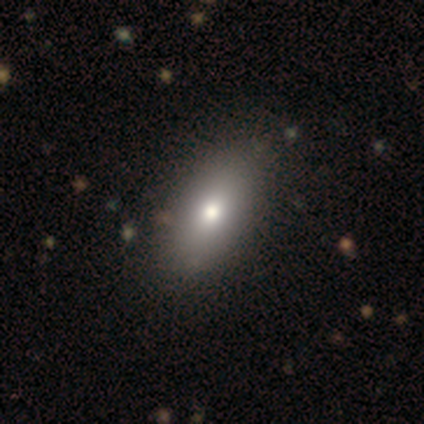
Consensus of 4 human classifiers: This appears to be a smooth galaxy with no disk features (75%) that is in between round and cigar-shaped (100%). Merging: none (100%).